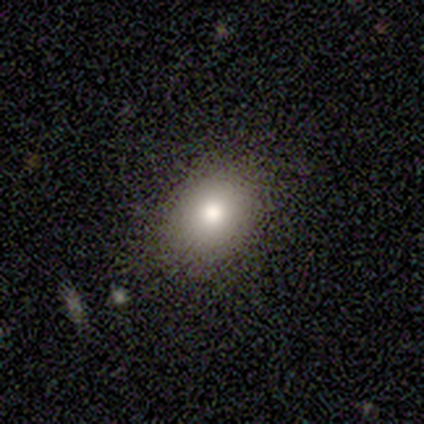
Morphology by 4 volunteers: A smooth galaxy with no disk features (75%) that is in between round and cigar-shaped (67%). Merging: none (100%).